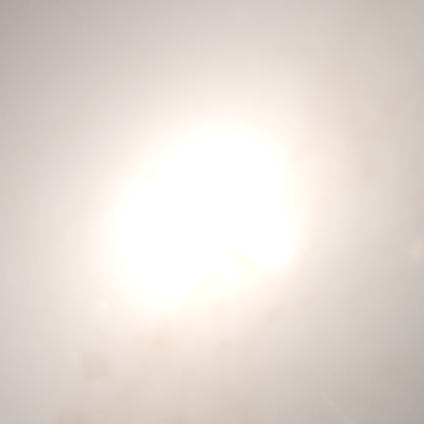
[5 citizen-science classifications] Volunteers were most divided on "smooth or featured": star or artifact: 80%, smooth: 20%, featured or disk: 0%.